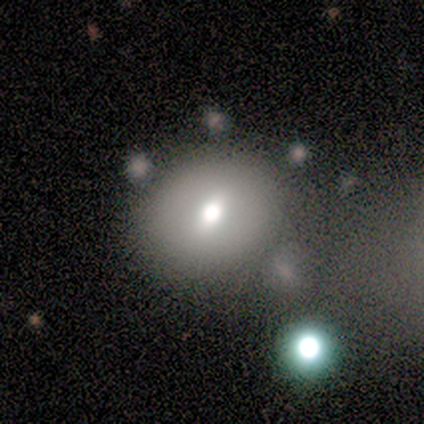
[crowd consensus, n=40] Smooth or featured? 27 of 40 (68%) said smooth. How rounded? 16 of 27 (59%) said round. Merging? 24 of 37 (65%) said none.